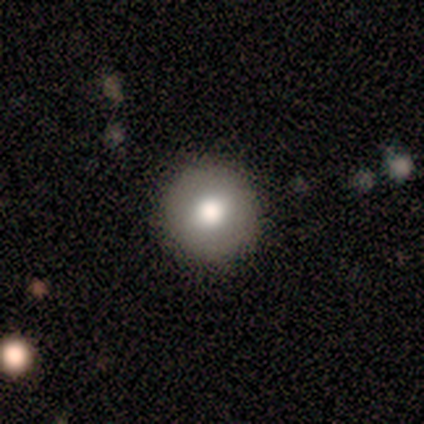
Q: Smooth or featured?
A: smooth (71%); runner-up: featured or disk (29%)
Q: How rounded?
A: round (100%)
Q: Merging?
A: none (100%)